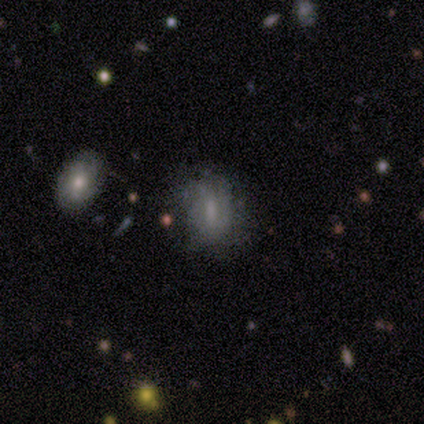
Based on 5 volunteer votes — Smooth or featured?
  - smooth: 40% * (tied)
  - featured or disk: 40% * (tied)
  - star or artifact: 20%
How rounded?
  - in between: 100% *
  - round: 0%
  - cigar-shaped: 0%
Merging?
  - minor disturbance: 75% *
  - none: 25%
  - major disturbance: 0%
  - merger: 0%